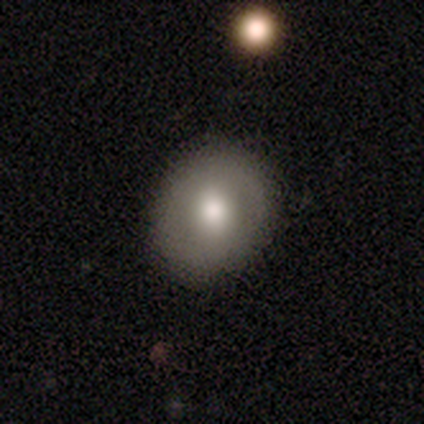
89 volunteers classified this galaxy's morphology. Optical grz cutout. It shows a smooth galaxy with no disk features (72%) that is round (67%). Merging: none (86%).